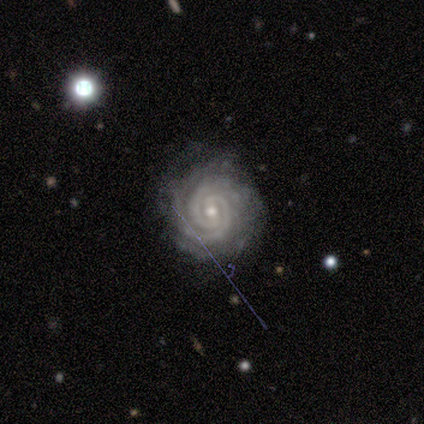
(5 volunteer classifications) smooth-or-featured: featured or disk: 100% | smooth: 0% | star or artifact: 0%
  disk-edge-on: no: 100% | yes: 0%
    bar: weak: 60% | strong: 20% | no: 20%
    has-spiral-arms: yes: 100% | no: 0%
      spiral-winding: tight: 100% | medium: 0% | loose: 0%
      spiral-arm-count: 2: 60% | more than 4: 20% | can't tell: 20% | 1: 0% | 3: 0% | 4: 0%
    bulge-size: small: 80% | moderate: 20% | dominant: 0% | large: 0% | none: 0%
  merging: none: 100% | minor disturbance: 0% | major disturbance: 0% | merger: 0%